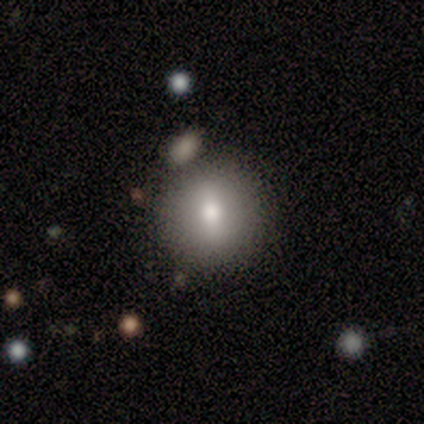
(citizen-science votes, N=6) Morphology: type=smooth (67%); roundness=round (100%); merging=none (67%).